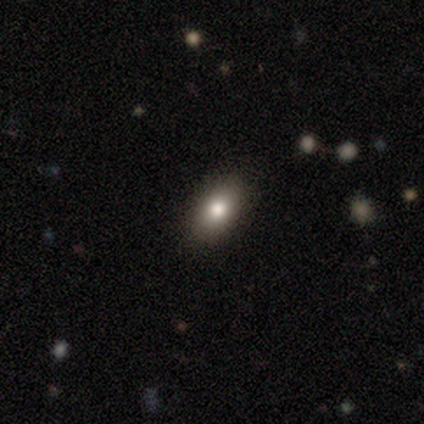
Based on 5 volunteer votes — A smooth galaxy with no disk features (60%) that is in between round and cigar-shaped (100%). Merging: none (100%).